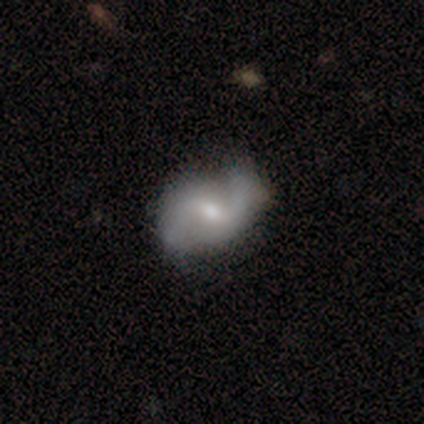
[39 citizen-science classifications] Overall: featured or disk (77%). Edge-on disk: no (100%). Bar: weak (67%). Spiral arms: yes (100%). Spiral arm count: 2 (90%). Spiral winding: loose (67%; medium 30%). Bulge size: small (53%; moderate 47%). Merging: none (77%).